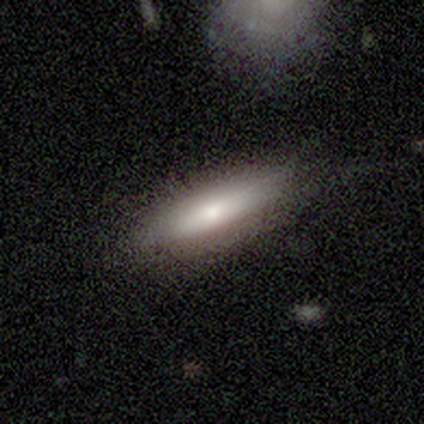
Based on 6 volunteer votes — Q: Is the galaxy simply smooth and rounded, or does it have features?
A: smooth — 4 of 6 (67%).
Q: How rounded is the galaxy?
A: cigar-shaped — 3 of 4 (75%).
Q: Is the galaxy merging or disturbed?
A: none — 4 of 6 (67%).